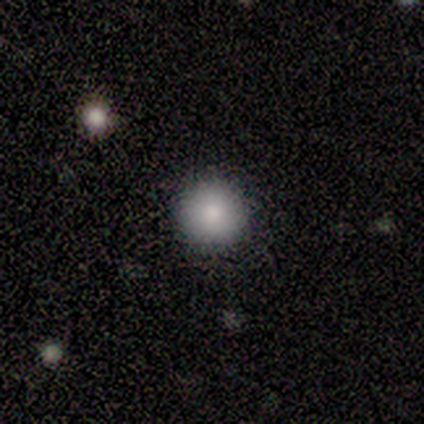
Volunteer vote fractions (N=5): Overall: smooth (80%). How rounded: round (100%). Merging: none (80%).